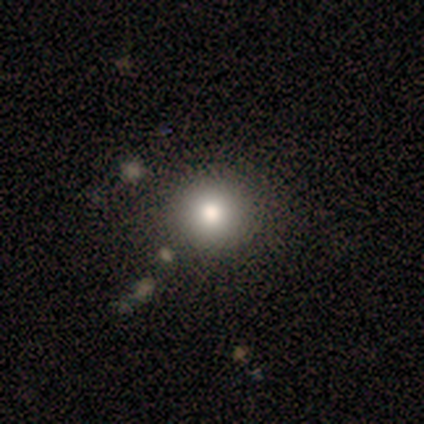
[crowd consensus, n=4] smooth-or-featured: smooth: 75% | star or artifact: 25% | featured or disk: 0%
  how-rounded: round: 67% | in between: 33% | cigar-shaped: 0%
  merging: none: 100% | minor disturbance: 0% | major disturbance: 0% | merger: 0%